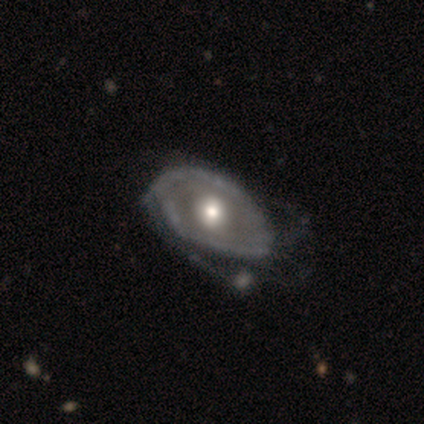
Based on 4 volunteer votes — Overall: featured or disk (75%). Edge-on disk: no (100%). Bar: no (67%; weak 33%). Spiral arms: yes (67%; no 33%). Spiral arm count: 1 (50%, tied with 2). Spiral winding: medium (50%, tied with loose). Bulge size: moderate (100%). Merging: none (50%; major disturbance 25%).